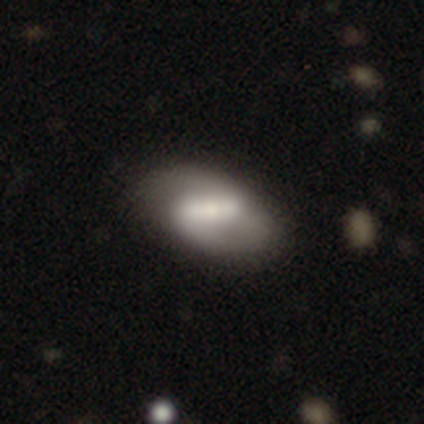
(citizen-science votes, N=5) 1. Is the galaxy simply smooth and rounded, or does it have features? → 100% featured or disk, 0% smooth, 0% star or artifact.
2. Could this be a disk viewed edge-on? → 80% no, 20% yes.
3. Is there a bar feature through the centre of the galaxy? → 50% strong (tied), 50% weak (tied), 0% no.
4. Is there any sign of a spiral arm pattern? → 75% yes, 25% no.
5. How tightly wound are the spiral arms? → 67% medium, 33% tight, 0% loose.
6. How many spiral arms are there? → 100% 2, 0% 1, 0% 3, 0% 4, 0% more than 4, 0% can't tell.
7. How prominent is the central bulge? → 75% moderate, 25% large, 0% dominant, 0% small, 0% none.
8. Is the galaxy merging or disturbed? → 80% none, 20% minor disturbance, 0% major disturbance, 0% merger.